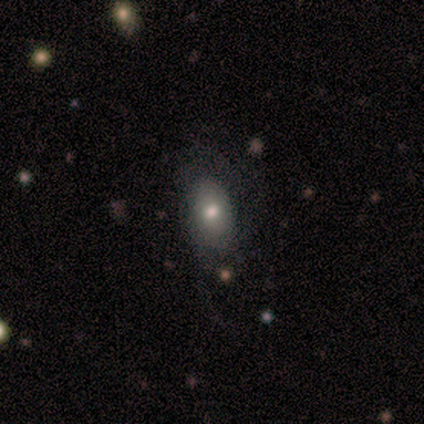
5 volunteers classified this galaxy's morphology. A smooth galaxy with no disk features (40%, tied with featured or disk) that is in between round and cigar-shaped (50%, tied with cigar-shaped). Merging: major disturbance (50%).